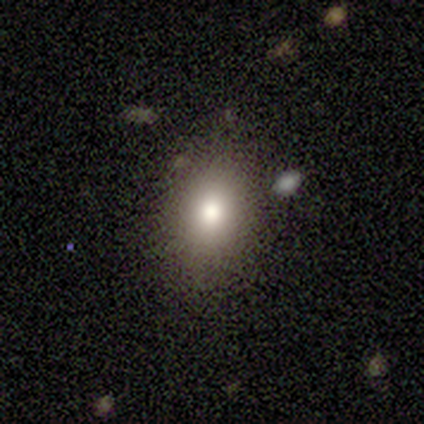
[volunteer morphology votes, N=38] Smooth or featured: smooth — 82% (star or artifact — 13%)
How rounded: in between — 71% (round — 29%)
Merging: none — 85% (minor disturbance — 12%)